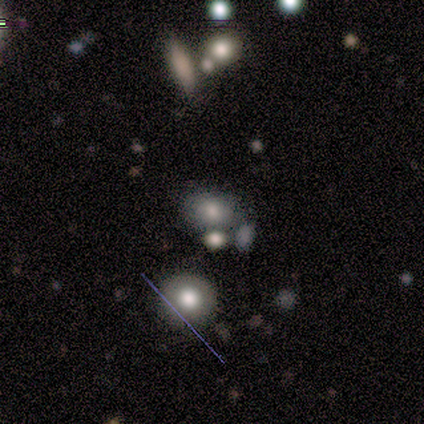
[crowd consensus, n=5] A smooth galaxy with no disk features (60%) that is round (67%).

Vote fractions:
- Smooth or featured? smooth: 60% / featured or disk: 20% / star or artifact: 20%
- How rounded? round: 67% / in between: 33% / cigar-shaped: 0%
- Merging? minor disturbance: 50% / none: 25% / merger: 25% / major disturbance: 0%